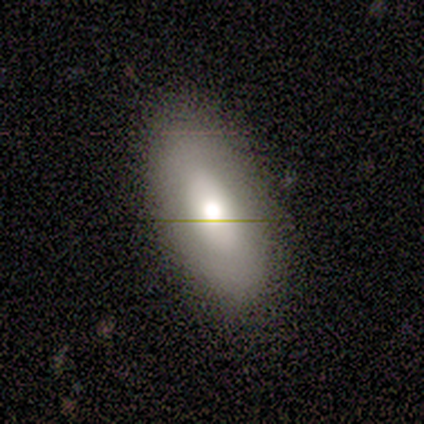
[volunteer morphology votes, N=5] Volunteers were most divided on "smooth or featured": featured or disk: 60%, smooth: 40%, star or artifact: 0%. More confident: edge-on disk — no (100%); bar — no (100%); spiral arms — no (100%); merging — none (100%); bulge size — moderate (67%).